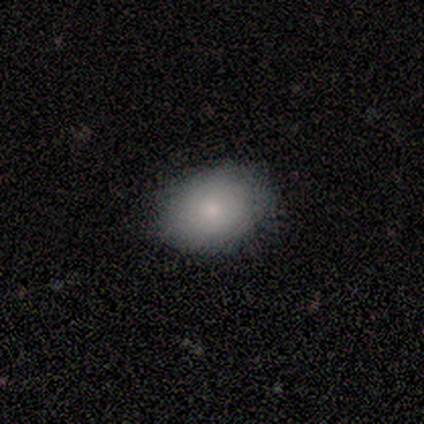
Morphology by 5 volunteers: smooth_or_featured: smooth (p=0.80) [alt: star or artifact p=0.20]
how_rounded: round (p=0.75) [alt: in between p=0.25]
merging: none (p=1.00)